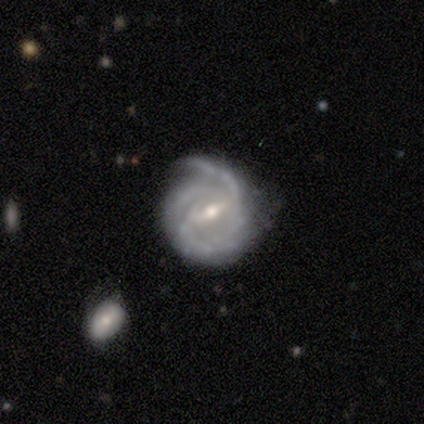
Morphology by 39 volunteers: This appears to be a featured or disk galaxy (87%) with a strong bar (61%), 2 (41%) tight (44%) spiral arms (97%) and a moderate central bulge (61%). Merging: none (62%).